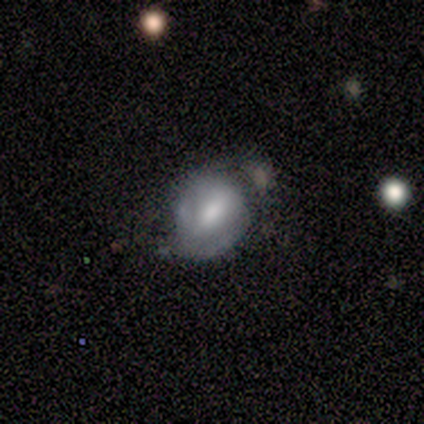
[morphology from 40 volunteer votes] A featured or disk galaxy (57%) with a weak bar (55%), 2 (75%) medium (50%) spiral arms (80%) and a moderate central bulge (40%). Merging: minor disturbance (32%).